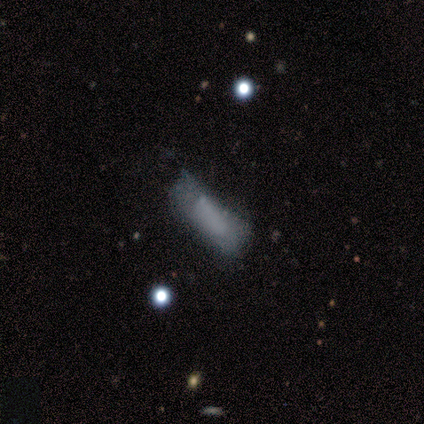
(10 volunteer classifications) Overall: smooth (60%; featured or disk 30%). How rounded: cigar-shaped (67%; in between 33%). Merging: major disturbance (33%; none 22%).